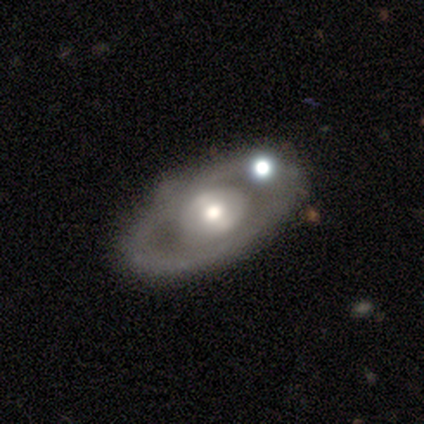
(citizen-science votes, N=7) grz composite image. It shows a featured or disk galaxy (86%) with no bar (75%), no spiral arms (100%) and a moderate central bulge (50%, tied with small). Merging: none (100%).